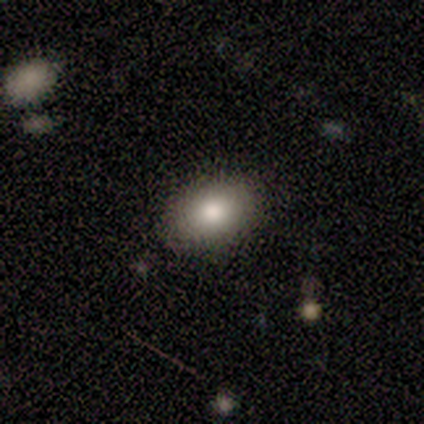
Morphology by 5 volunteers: Smooth or featured?
  - smooth: 100% *
  - featured or disk: 0%
  - star or artifact: 0%
How rounded?
  - in between: 100% *
  - round: 0%
  - cigar-shaped: 0%
Merging?
  - none: 100% *
  - minor disturbance: 0%
  - major disturbance: 0%
  - merger: 0%